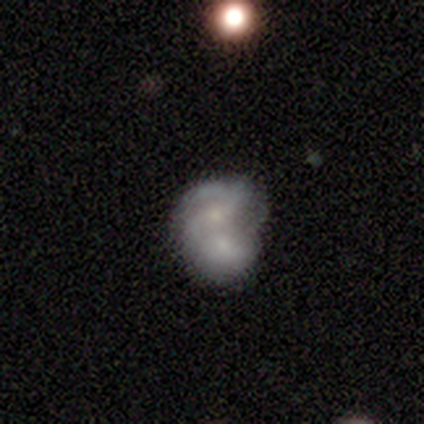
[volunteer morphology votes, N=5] This is clearly a featured or disk galaxy (80%). It is clearly not viewed edge-on (100%). Bar: likely no (75%). Spiral arm pattern: clearly yes (100%). Spiral arm count: likely 2 (75%). Spiral winding: possibly tight (50%, tied with medium). Central bulge: possibly moderate (50%, tied with small). Merging: clearly merger (100%).